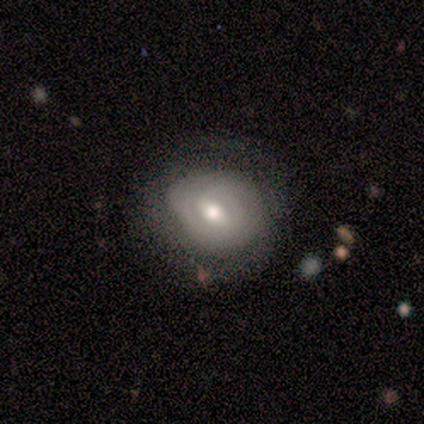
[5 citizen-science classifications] This is likely a featured or disk galaxy (60%). It is clearly not viewed edge-on (100%). Bar: clearly weak (100%). Spiral arm pattern: likely no (67%). Central bulge: likely moderate (67%). Merging: likely none (60%).